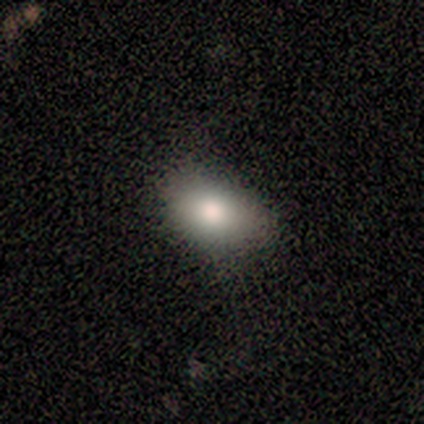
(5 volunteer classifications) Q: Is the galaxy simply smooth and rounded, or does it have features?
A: featured or disk — 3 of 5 (60%).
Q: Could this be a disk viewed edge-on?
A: no — 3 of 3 (100%).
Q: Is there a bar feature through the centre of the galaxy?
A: no — 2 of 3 (67%).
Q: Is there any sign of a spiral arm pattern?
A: no — 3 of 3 (100%).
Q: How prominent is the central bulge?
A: large — 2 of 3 (67%).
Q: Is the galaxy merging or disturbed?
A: none — 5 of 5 (100%).